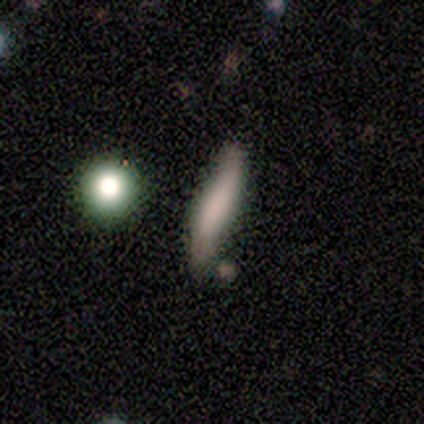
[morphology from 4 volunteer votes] Overall: smooth (75%). How rounded: cigar-shaped (100%). Merging: none (50%, tied with minor disturbance).